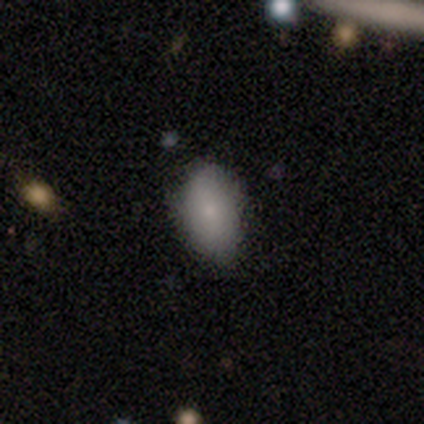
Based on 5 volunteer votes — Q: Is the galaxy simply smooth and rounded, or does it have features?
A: smooth — 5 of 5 (100%).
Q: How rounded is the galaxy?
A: in between — 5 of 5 (100%).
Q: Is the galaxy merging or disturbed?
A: none — 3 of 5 (60%).